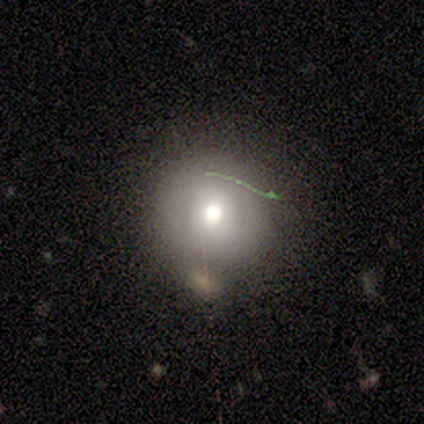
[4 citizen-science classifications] This appears to be a smooth galaxy with no disk features (75%) that is round (100%). Merging: none (75%).